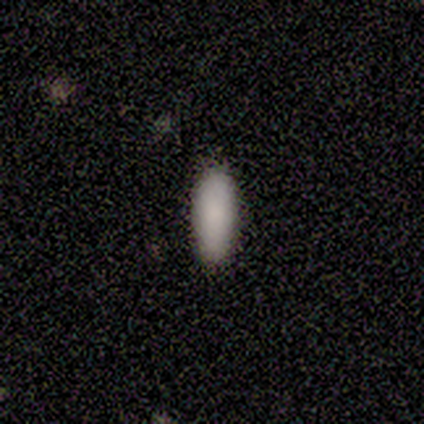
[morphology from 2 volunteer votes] smooth_or_featured: smooth (p=1.00)
how_rounded: in between (p=0.50) [tied with: cigar-shaped p=0.50]
merging: none (p=1.00)